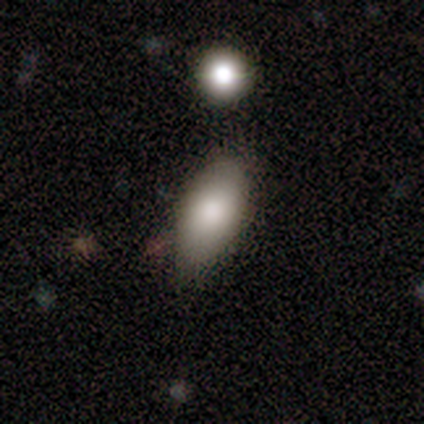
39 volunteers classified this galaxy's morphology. A smooth galaxy with no disk features (85%) that is in between round and cigar-shaped (91%).

Vote fractions:
- Smooth or featured? smooth: 85% / featured or disk: 10% / star or artifact: 5%
- How rounded? in between: 91% / round: 9% / cigar-shaped: 0%
- Merging? none: 70% / minor disturbance: 27% / major disturbance: 3% / merger: 0%